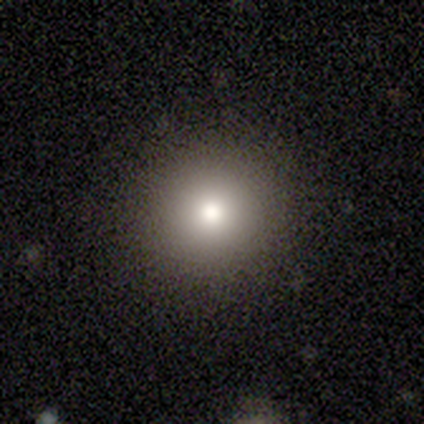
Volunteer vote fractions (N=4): Smooth or featured?
  - smooth: 75% *
  - featured or disk: 25%
  - star or artifact: 0%
How rounded?
  - round: 100% *
  - in between: 0%
  - cigar-shaped: 0%
Merging?
  - none: 75% *
  - minor disturbance: 25%
  - major disturbance: 0%
  - merger: 0%